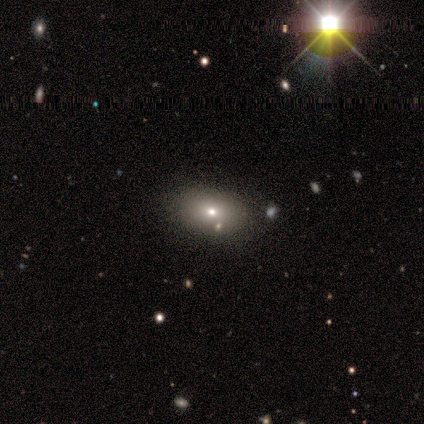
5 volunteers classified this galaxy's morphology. A smooth galaxy with no disk features (80%) that is in between round and cigar-shaped (75%).

Vote fractions:
- Smooth or featured? smooth: 80% / star or artifact: 20% / featured or disk: 0%
- How rounded? in between: 75% / round: 25% / cigar-shaped: 0%
- Merging? none: 100% / minor disturbance: 0% / major disturbance: 0% / merger: 0%